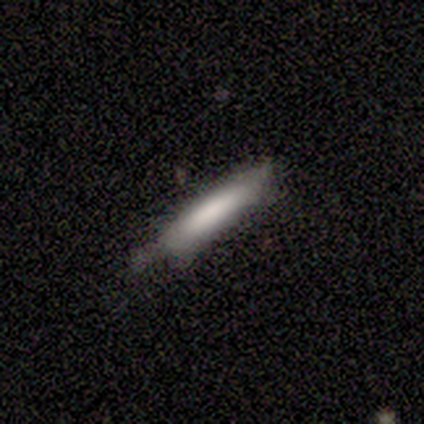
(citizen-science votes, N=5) Smooth or featured: smooth — 80% (featured or disk — 20%)
How rounded: cigar-shaped — 100%
Merging: minor disturbance — 60% (none — 40%)